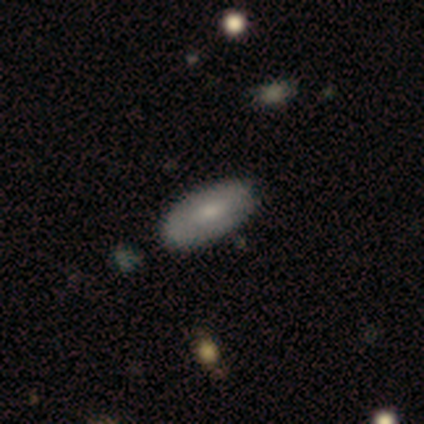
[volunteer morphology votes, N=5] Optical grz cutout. It shows a featured or disk galaxy (60%) with no bar (67%), 1 (50%, tied with can't tell) tight (100%) spiral arms (67%) and a small central bulge (67%). Merging: none (80%).